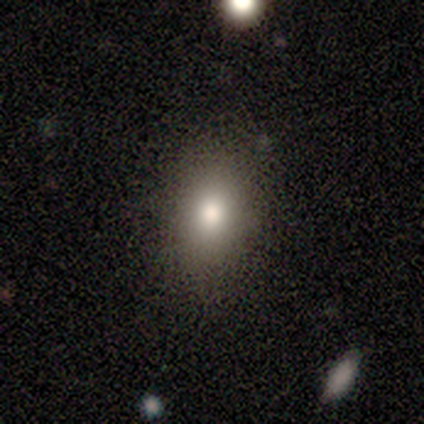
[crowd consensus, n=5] smooth-or-featured: smooth: 80% | star or artifact: 20% | featured or disk: 0%
  how-rounded: in between: 75% | round: 25% | cigar-shaped: 0%
  merging: none: 100% | minor disturbance: 0% | major disturbance: 0% | merger: 0%